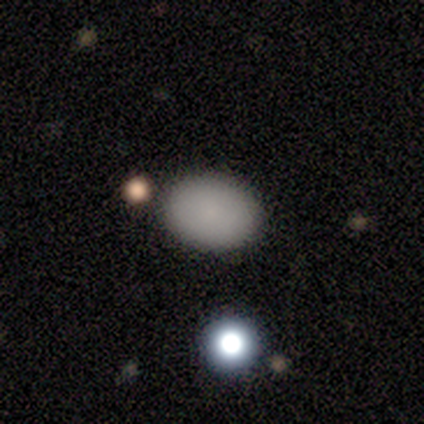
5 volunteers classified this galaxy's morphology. A smooth galaxy with no disk features (100%) that is in between round and cigar-shaped (80%).

Vote fractions:
- Smooth or featured? smooth: 100% / featured or disk: 0% / star or artifact: 0%
- How rounded? in between: 80% / round: 20% / cigar-shaped: 0%
- Merging? none: 100% / minor disturbance: 0% / major disturbance: 0% / merger: 0%